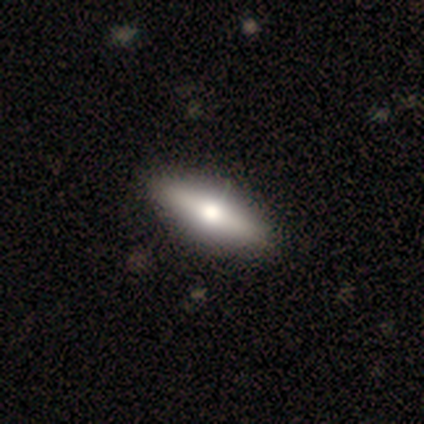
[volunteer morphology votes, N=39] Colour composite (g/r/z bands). It shows a featured or disk galaxy (49%) viewed edge-on (68%) with a rounded central bulge (100%). Merging: none (70%).